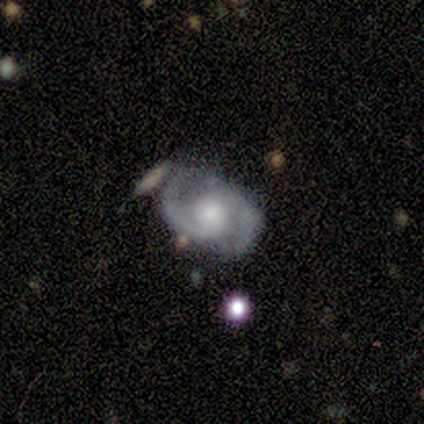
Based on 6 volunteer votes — Volunteers were most divided on "spiral winding": medium: 50%, tight: 33%, loose: 17%. More confident: smooth or featured — featured or disk (100%); edge-on disk — no (100%); spiral arms — yes (100%); spiral arm count — 2 (100%); bar — weak (67%); bulge size — moderate (67%); merging — none (67%).